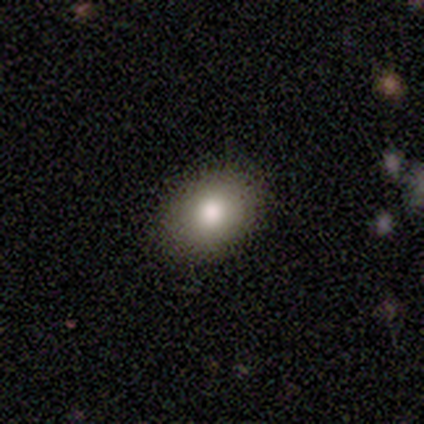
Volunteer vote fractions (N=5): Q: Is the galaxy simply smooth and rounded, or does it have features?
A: smooth — 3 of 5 (60%).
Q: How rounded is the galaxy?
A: round — 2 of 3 (67%).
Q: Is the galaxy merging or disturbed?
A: none — 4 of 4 (100%).